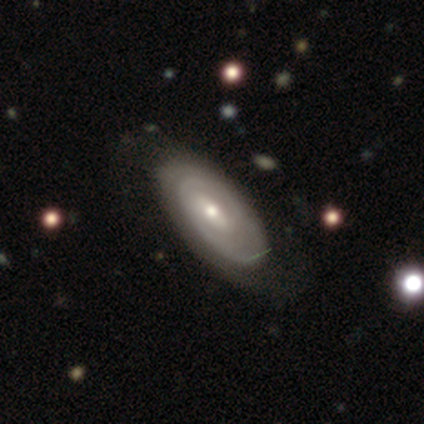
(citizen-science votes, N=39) Morphology: type=featured or disk (74%); edge-on=no (93%); bar=weak (70%); spiral arms=yes (96%); winding=tight (73%); arm count=2 (46%); bulge=moderate (52%); merging=none (63%).